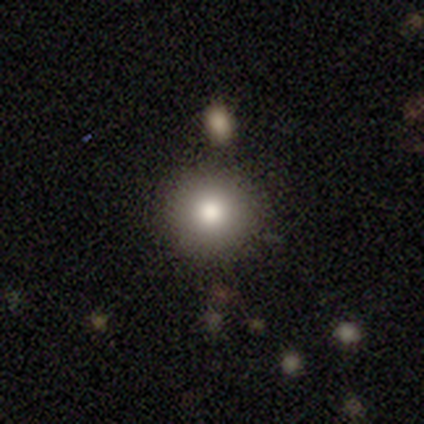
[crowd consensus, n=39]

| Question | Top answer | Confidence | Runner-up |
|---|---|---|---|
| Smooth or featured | smooth | 72% | star or artifact (23%) |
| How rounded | round | 93% | in between (7%) |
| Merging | none | 83% | merger (10%) |